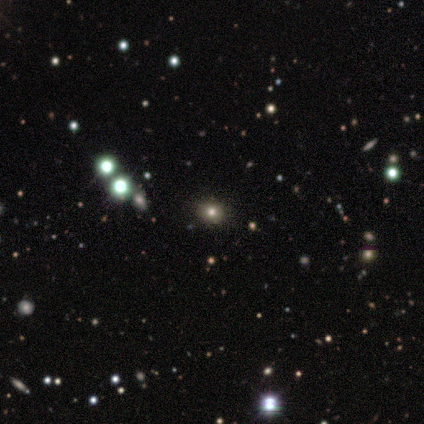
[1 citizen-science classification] Smooth or featured: smooth — 100%
How rounded: round — 100%
Merging: none — 100%